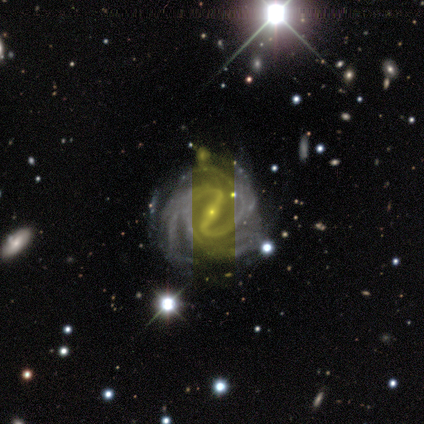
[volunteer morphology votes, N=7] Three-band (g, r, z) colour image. It shows a featured or disk galaxy (100%) with a strong bar (86%), 2 (43%) tight (71%) spiral arms (100%) and a small central bulge (100%). Merging: none (43%, tied with minor disturbance).